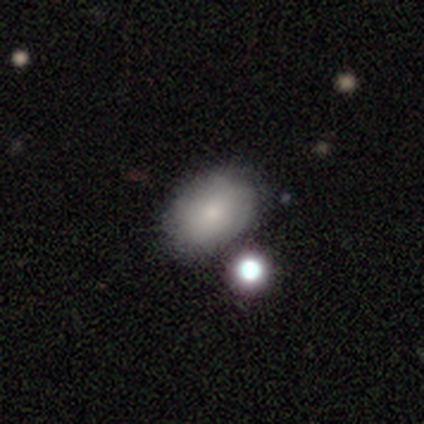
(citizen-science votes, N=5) This appears to be a smooth galaxy with no disk features (80%) that is in between round and cigar-shaped (100%). Merging: none (40%, tied with merger).